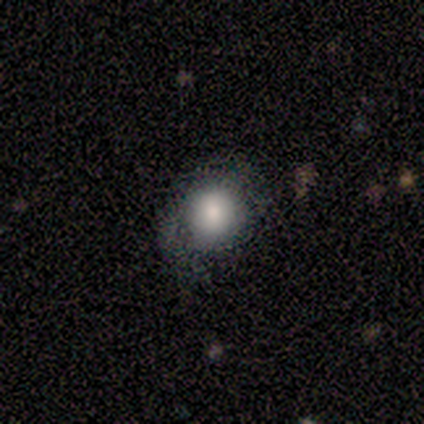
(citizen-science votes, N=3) A smooth galaxy with no disk features (67%) that is in between round and cigar-shaped (100%). Merging: minor disturbance (100%).